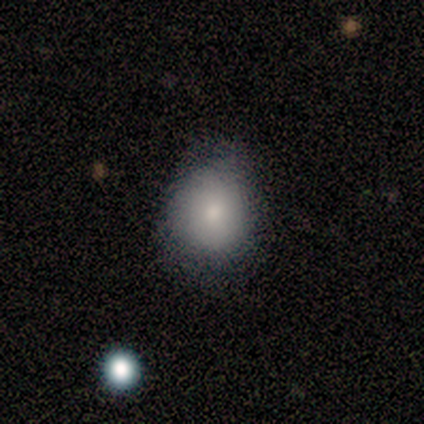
smooth_or_featured: smooth (p=0.60) [alt: featured or disk p=0.20]
how_rounded: round (p=1.00)
merging: none (p=0.50) [tied with: minor disturbance p=0.50]